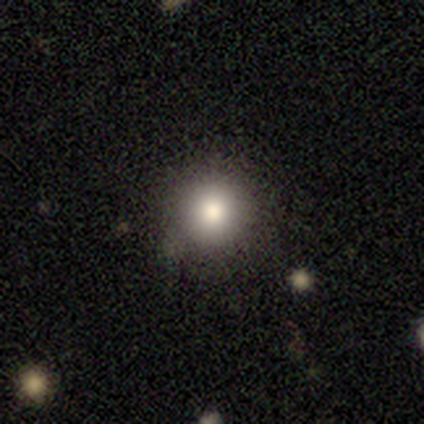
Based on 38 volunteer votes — Volunteers were most divided on "smooth or featured": smooth: 71%, featured or disk: 16%, star or artifact: 13%. More confident: how rounded — round (100%); merging — none (79%).